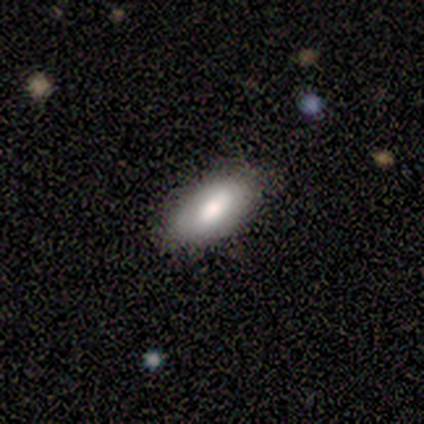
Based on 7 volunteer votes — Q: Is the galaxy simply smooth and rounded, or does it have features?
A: smooth — 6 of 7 (86%).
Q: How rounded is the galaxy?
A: in between — 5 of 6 (83%).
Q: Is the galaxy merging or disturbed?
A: none — 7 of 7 (100%).